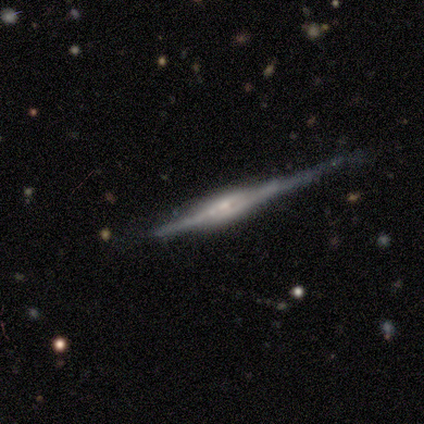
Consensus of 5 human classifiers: Q: Smooth or featured?
A: featured or disk (80%); runner-up: smooth (20%)
Q: Edge-on disk?
A: yes (100%)
Q: Edge-on bulge?
A: boxy (50%); tied with: rounded (50%)
Q: Merging?
A: none (80%); runner-up: minor disturbance (20%)